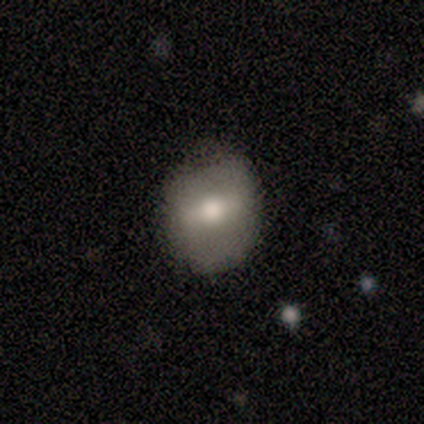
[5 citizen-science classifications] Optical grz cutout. It shows a smooth galaxy with no disk features (80%) that is round (50%, tied with in between). Merging: none (60%).